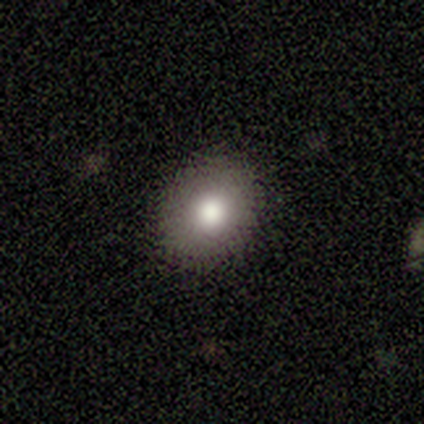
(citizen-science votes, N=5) Volunteers were most divided on "how rounded": round: 75%, in between: 25%, cigar-shaped: 0%. More confident: merging — none (100%); smooth or featured — smooth (80%).